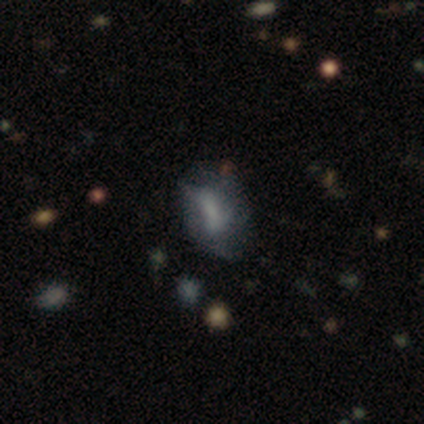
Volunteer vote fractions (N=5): A smooth galaxy with no disk features (60%) that is in between round and cigar-shaped (100%). Merging: none (67%).